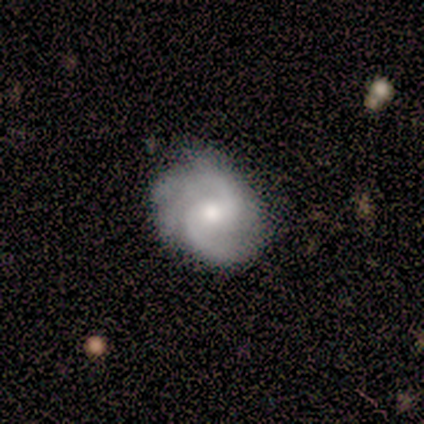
smooth-or-featured: featured or disk: 86% | smooth: 14% | star or artifact: 0%
  disk-edge-on: no: 83% | yes: 17%
    bar: weak: 80% | no: 20% | strong: 0%
    has-spiral-arms: yes: 100% | no: 0%
      spiral-winding: tight: 60% | medium: 40% | loose: 0%
      spiral-arm-count: 2: 100% | 1: 0% | 3: 0% | 4: 0% | more than 4: 0% | can't tell: 0%
    bulge-size: moderate: 60% | large: 20% | small: 20% | dominant: 0% | none: 0%
  merging: none: 71% | minor disturbance: 29% | major disturbance: 0% | merger: 0%